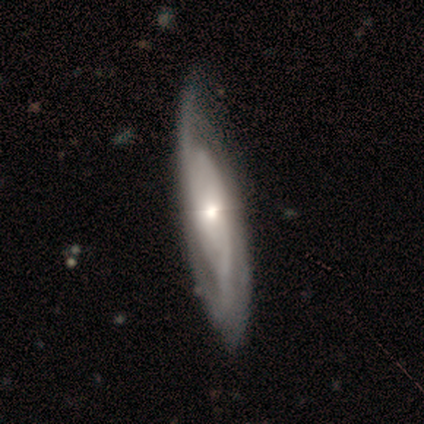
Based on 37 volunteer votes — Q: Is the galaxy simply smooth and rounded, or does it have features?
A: featured or disk — 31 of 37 (84%).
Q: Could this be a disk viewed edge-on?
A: no — 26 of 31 (84%).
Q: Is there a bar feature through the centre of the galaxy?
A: no — 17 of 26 (65%).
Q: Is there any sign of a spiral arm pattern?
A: yes — 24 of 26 (92%).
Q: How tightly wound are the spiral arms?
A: tight — 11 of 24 (46%).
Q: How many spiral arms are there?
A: can't tell — 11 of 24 (46%).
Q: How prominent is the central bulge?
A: moderate — 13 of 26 (50%).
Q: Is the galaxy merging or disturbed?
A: none — 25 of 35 (71%).